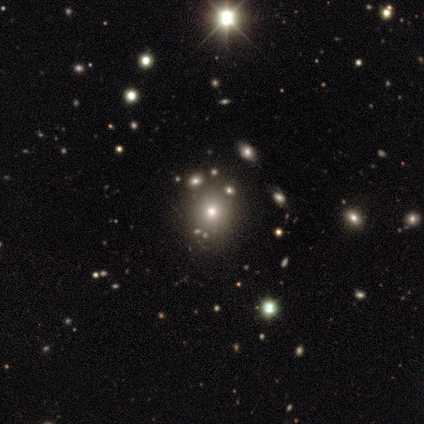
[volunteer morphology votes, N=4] A star or artifact, not a galaxy (50%).

Vote fractions:
- Smooth or featured? star or artifact: 50% / smooth: 25% / featured or disk: 25%